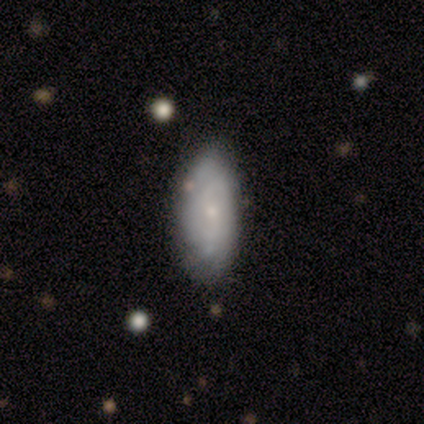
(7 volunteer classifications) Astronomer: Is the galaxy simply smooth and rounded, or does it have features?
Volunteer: featured or disk — 57% (runner-up: smooth, 43%).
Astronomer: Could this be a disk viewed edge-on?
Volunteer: no — 100%.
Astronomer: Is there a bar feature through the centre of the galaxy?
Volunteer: no — 100%.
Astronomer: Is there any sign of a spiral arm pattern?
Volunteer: yes — 75%.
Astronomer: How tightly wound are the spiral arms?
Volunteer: tight — 67%.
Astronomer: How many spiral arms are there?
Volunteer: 2 — 33%, tied with 4 and can't tell at 33%.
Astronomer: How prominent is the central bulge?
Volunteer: small — 75%.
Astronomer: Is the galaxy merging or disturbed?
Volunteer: none — 57% (runner-up: minor disturbance, 43%).